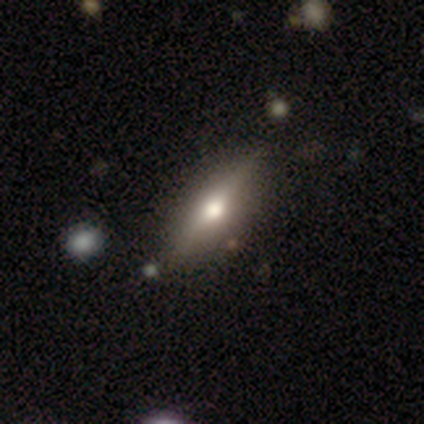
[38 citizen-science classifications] Smooth or featured? featured or disk (68%)
Edge-on disk? yes (96%)
Edge-on bulge? rounded (92%)
Merging? none (58%)